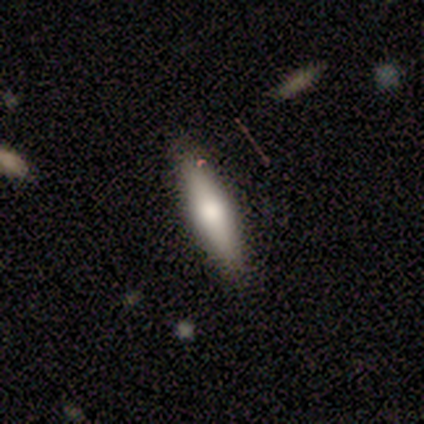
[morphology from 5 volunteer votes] This is likely a featured or disk galaxy (60%). It is likely not viewed edge-on (67%). Bar: clearly no (100%). Spiral arm pattern: clearly no (100%). Central bulge: possibly dominant (50%, tied with moderate). Merging: clearly none (80%).